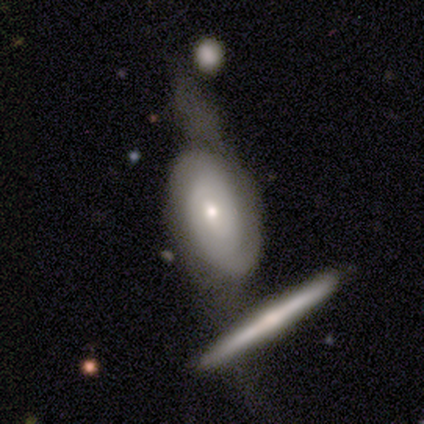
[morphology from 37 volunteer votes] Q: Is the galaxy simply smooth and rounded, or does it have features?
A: featured or disk — 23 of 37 (62%).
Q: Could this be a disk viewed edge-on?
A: no — 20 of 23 (87%).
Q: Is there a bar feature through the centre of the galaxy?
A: no — 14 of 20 (70%).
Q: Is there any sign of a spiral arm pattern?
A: yes — 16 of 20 (80%).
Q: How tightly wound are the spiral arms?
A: medium — 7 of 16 (44%).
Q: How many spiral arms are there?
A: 2 — 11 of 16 (69%).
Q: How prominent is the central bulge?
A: small — 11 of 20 (55%).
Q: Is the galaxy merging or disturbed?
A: major disturbance — 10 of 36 (28%, tied with merger).